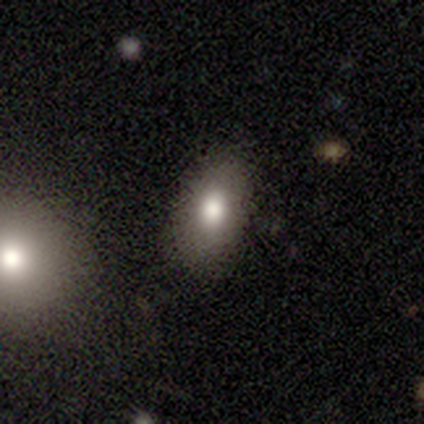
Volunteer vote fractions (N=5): Overall: smooth (60%; featured or disk 40%). How rounded: in between (100%). Merging: none (100%).